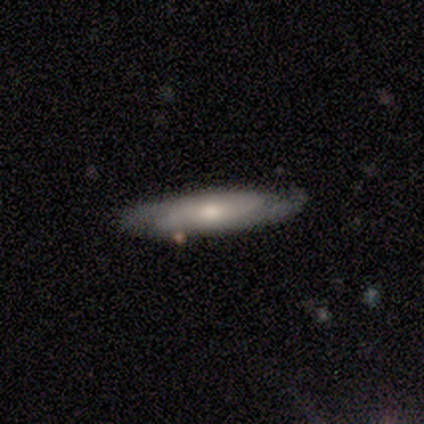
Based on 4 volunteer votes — Smooth or featured? 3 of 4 (75%) said featured or disk. Edge-on disk? 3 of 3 (100%) said no. Bar? 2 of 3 (67%) said weak. Spiral arms? 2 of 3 (67%) said yes. Spiral winding? 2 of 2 (100%) said tight. Spiral arm count? 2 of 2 (100%) said 2. Bulge size? 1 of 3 (33%, tied with moderate and small) said large. Merging? 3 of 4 (75%) said none.